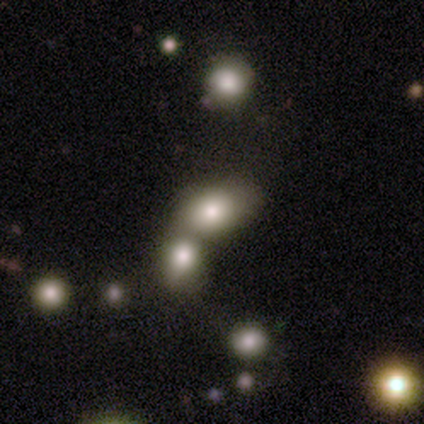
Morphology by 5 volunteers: smooth 60%, featured or disk 40%, star or artifact 0%. Down the decision tree: how rounded — in between (100%); merging — none (60%).